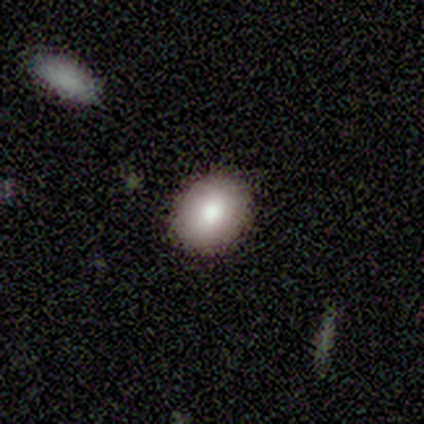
Smooth or featured? smooth (100%)
How rounded? round (60%)
Merging? none (100%)